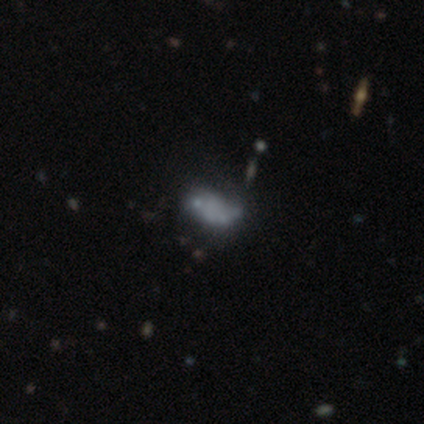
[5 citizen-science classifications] Smooth or featured? 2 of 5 (40%, tied with featured or disk) said smooth. How rounded? 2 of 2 (100%) said in between. Merging? 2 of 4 (50%) said none.